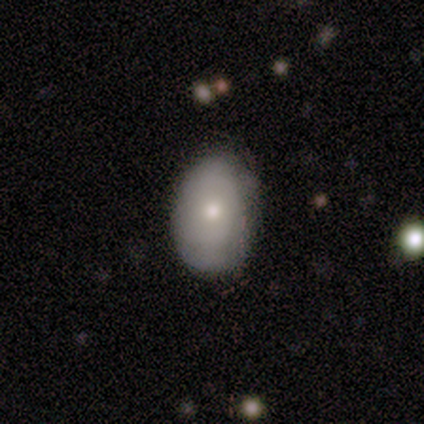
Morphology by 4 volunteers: A smooth galaxy with no disk features (50%, tied with featured or disk) that is round (50%, tied with in between).

Vote fractions:
- Smooth or featured? smooth: 50% (tied) / featured or disk: 50% (tied) / star or artifact: 0%
- How rounded? round: 50% (tied) / in between: 50% (tied) / cigar-shaped: 0%
- Merging? none: 100% / minor disturbance: 0% / major disturbance: 0% / merger: 0%